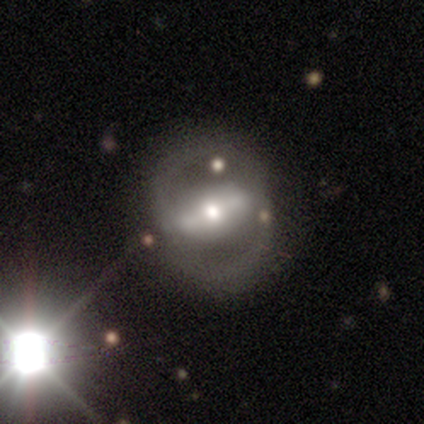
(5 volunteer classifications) smooth-or-featured: featured or disk: 100% | smooth: 0% | star or artifact: 0%
  disk-edge-on: no: 100% | yes: 0%
    bar: strong: 60% | weak: 40% | no: 0%
    has-spiral-arms: yes: 60% | no: 40%
      spiral-winding: loose: 67% | medium: 33% | tight: 0%
      spiral-arm-count: 2: 100% | 1: 0% | 3: 0% | 4: 0% | more than 4: 0% | can't tell: 0%
    bulge-size: moderate: 60% | dominant: 20% | small: 20% | large: 0% | none: 0%
  merging: none: 100% | minor disturbance: 0% | major disturbance: 0% | merger: 0%